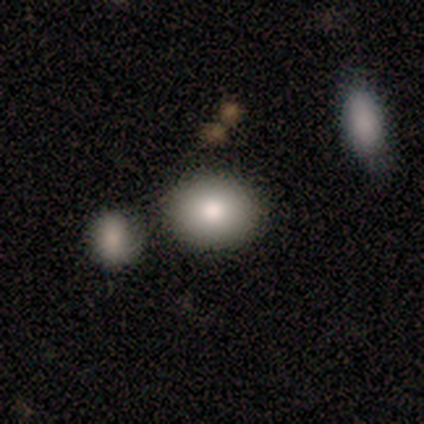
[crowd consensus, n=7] smooth 71%, featured or disk 14%, star or artifact 14%. Down the decision tree: how rounded — in between (60%); merging — none (50%).